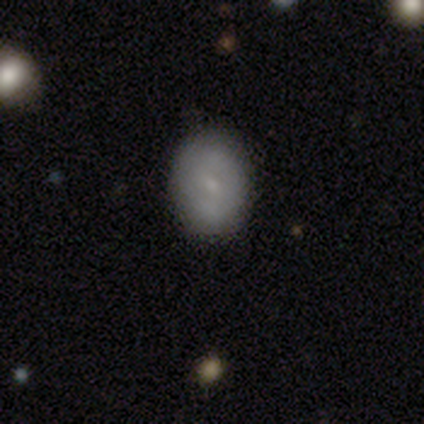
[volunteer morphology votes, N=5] type=smooth (60%); roundness=in between (67%); merging=none (100%).